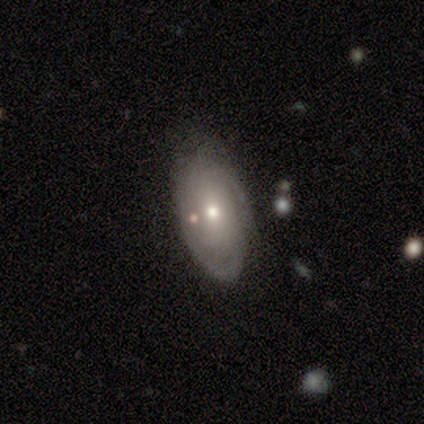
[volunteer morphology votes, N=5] Smooth or featured? smooth (60%)
How rounded? in between (100%)
Merging? none (60%)